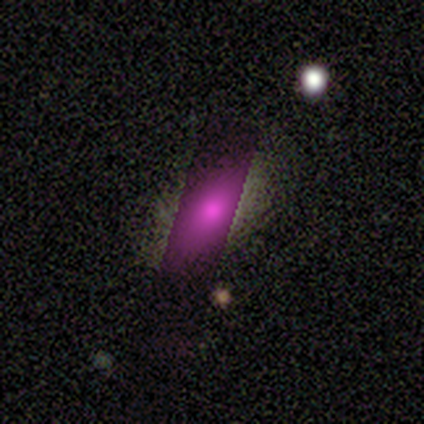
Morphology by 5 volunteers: Q: Smooth or featured?
A: star or artifact (60%); runner-up: smooth (20%)